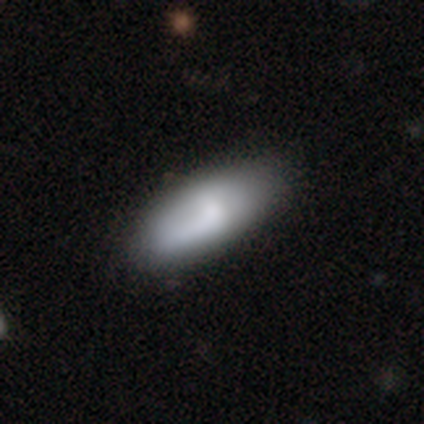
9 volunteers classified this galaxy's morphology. Volunteers were most divided on "bar" (2-way tie): weak: 50%, no: 50%, strong: 0%. More confident: edge-on disk — no (80%); spiral arms — no (75%); merging — none (67%); smooth or featured — featured or disk (56%); bulge size — moderate (50%).